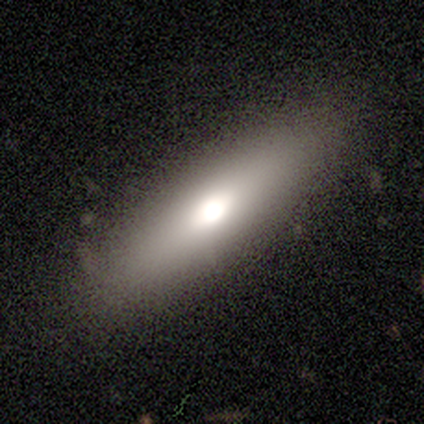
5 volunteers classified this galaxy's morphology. smooth 40% (tied), featured or disk 40% (tied), star or artifact 20%. Down the decision tree: how rounded — in between (100%); merging — none (75%).